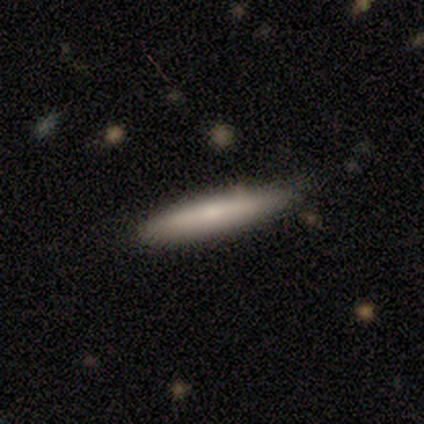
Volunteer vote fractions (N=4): smooth-or-featured: smooth: 75% | featured or disk: 25% | star or artifact: 0%
  how-rounded: round: 33% (tied) | in between: 33% (tied) | cigar-shaped: 33% (tied)
  merging: minor disturbance: 75% | none: 25% | major disturbance: 0% | merger: 0%